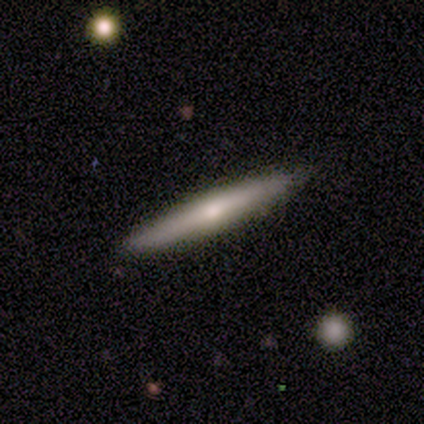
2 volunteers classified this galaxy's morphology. This is possibly a smooth galaxy (50%, tied with featured or disk). How rounded: clearly round (100%). Merging: possibly none (50%, tied with minor disturbance).